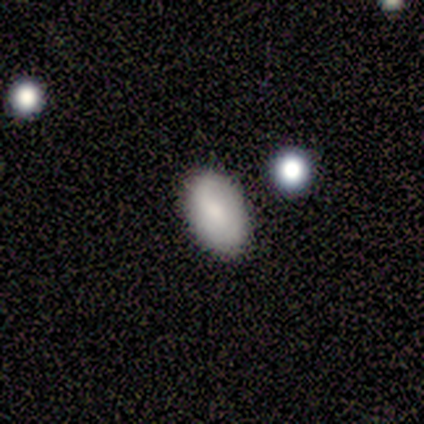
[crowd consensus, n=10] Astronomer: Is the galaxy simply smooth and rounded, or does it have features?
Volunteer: smooth — 80%.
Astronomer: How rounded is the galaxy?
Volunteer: in between — 100%.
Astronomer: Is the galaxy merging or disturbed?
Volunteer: none — 88%.